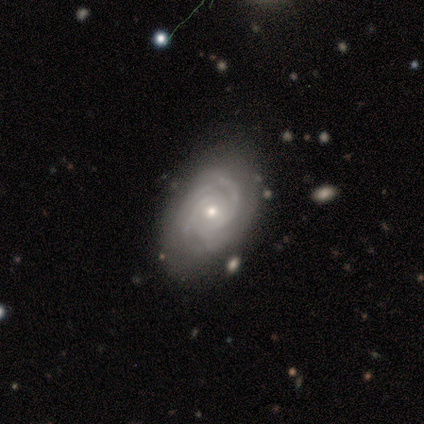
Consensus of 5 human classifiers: A featured or disk galaxy (100%) with no bar (80%), 2 (40%) tight (100%) spiral arms (100%) and a small central bulge (60%).

Vote fractions:
- Smooth or featured? featured or disk: 100% / smooth: 0% / star or artifact: 0%
- Edge-on disk? no: 100% / yes: 0%
- Bar? no: 80% / weak: 20% / strong: 0%
- Spiral arms? yes: 100% / no: 0%
- Spiral winding? tight: 100% / medium: 0% / loose: 0%
- Spiral arm count? 2: 40% / 3: 20% / 4: 20% / can't tell: 20% / 1: 0% / more than 4: 0%
- Bulge size? small: 60% / moderate: 40% / dominant: 0% / large: 0% / none: 0%
- Merging? none: 80% / minor disturbance: 20% / major disturbance: 0% / merger: 0%